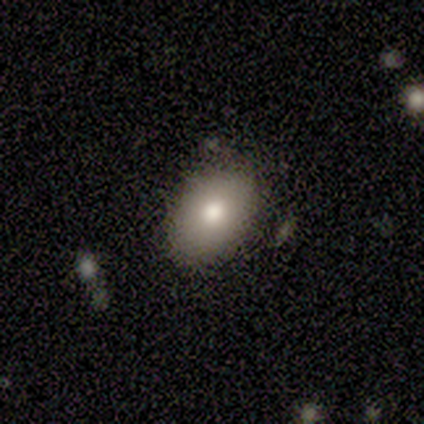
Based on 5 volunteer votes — Smooth or featured? 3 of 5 (60%) said smooth. How rounded? 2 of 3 (67%) said in between. Merging? 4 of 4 (100%) said none.